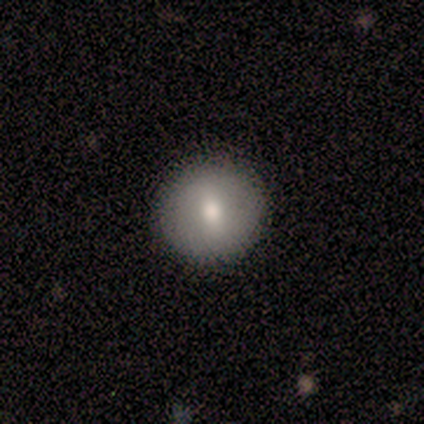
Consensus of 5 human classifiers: A smooth galaxy with no disk features (80%) that is round (100%).

Vote fractions:
- Smooth or featured? smooth: 80% / featured or disk: 20% / star or artifact: 0%
- How rounded? round: 100% / in between: 0% / cigar-shaped: 0%
- Merging? none: 100% / minor disturbance: 0% / major disturbance: 0% / merger: 0%